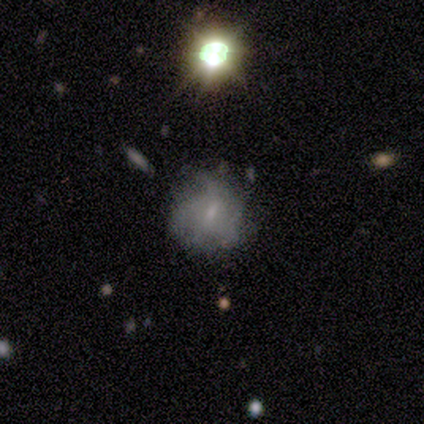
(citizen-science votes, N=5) smooth-or-featured: featured or disk: 60% | smooth: 20% | star or artifact: 20%
  disk-edge-on: no: 100% | yes: 0%
    bar: no: 67% | weak: 33% | strong: 0%
    has-spiral-arms: no: 100% | yes: 0%
    bulge-size: small: 67% | none: 33% | dominant: 0% | large: 0% | moderate: 0%
  merging: none: 75% | minor disturbance: 25% | major disturbance: 0% | merger: 0%